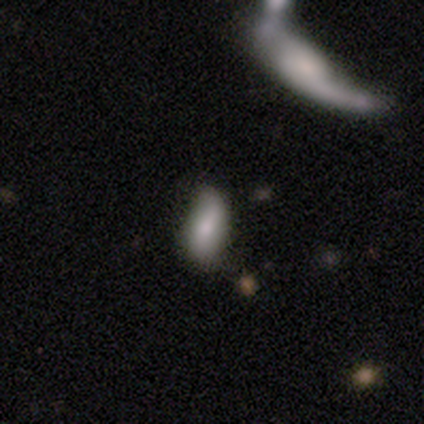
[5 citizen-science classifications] Volunteers were most divided on "merging": none: 60%, minor disturbance: 40%, major disturbance: 0%, merger: 0%. More confident: smooth or featured — smooth (80%); how rounded — in between (75%).